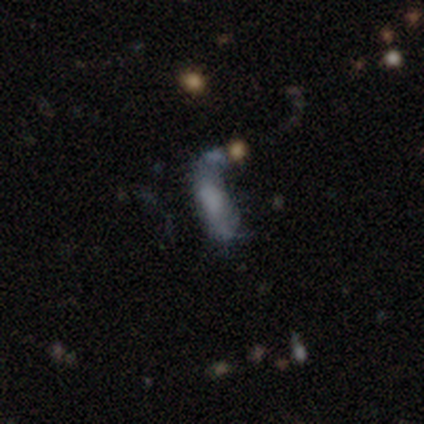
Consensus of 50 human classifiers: smooth_or_featured: featured or disk (p=0.60) [alt: smooth p=0.32]
disk_edge_on: no (p=0.97) [alt: yes p=0.03]
bar: no (p=0.86) [alt: weak p=0.10]
has_spiral_arms: no (p=0.79) [alt: yes p=0.21]
bulge_size: none (p=0.55) [alt: large p=0.24]
merging: major disturbance (p=0.41) [alt: none p=0.28]